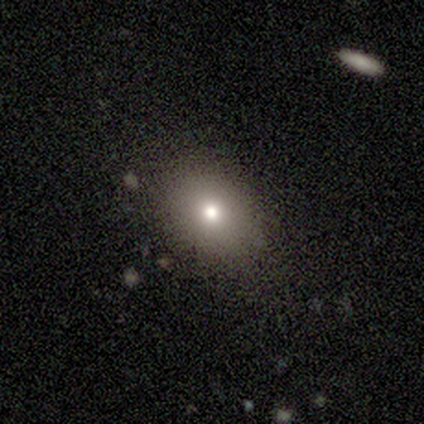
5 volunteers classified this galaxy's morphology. Q: Smooth or featured?
A: smooth (40%); tied with: star or artifact (40%)
Q: How rounded?
A: in between (100%)
Q: Merging?
A: none (67%); runner-up: minor disturbance (33%)